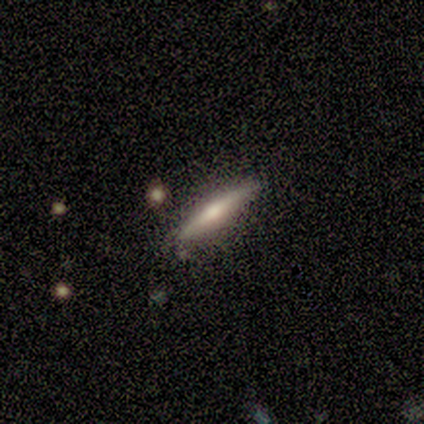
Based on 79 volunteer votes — A featured or disk galaxy (52%) viewed edge-on (100%) with a rounded central bulge (66%).

Vote fractions:
- Smooth or featured? featured or disk: 52% / smooth: 43% / star or artifact: 5%
- Edge-on disk? yes: 100% / no: 0%
- Edge-on bulge? rounded: 66% / none: 20% / boxy: 15%
- Merging? none: 45% / minor disturbance: 5% / merger: 1% / major disturbance: 0%